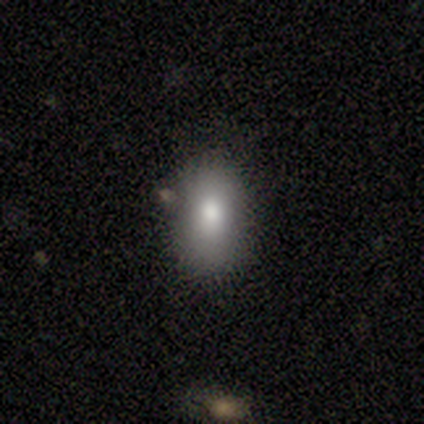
A smooth galaxy with no disk features (82%) that is in between round and cigar-shaped (91%). Merging: none (74%).